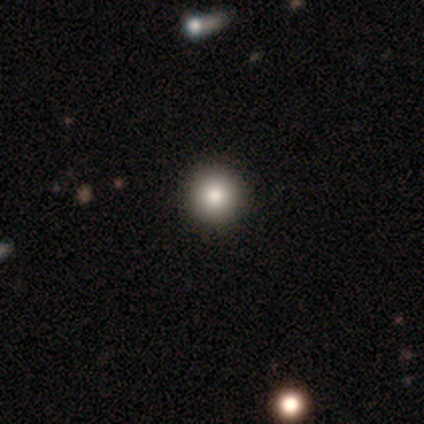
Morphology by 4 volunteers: This appears to be a smooth galaxy with no disk features (50%) that is round (100%). Merging: none (100%).